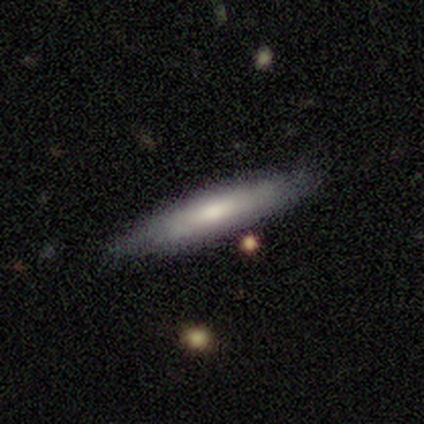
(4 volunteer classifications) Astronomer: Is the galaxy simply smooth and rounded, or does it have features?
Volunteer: smooth — 50%, tied with featured or disk at 50%.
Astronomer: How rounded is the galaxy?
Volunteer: in between — 100%.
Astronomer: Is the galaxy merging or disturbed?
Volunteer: none — 50%, tied with minor disturbance at 50%.